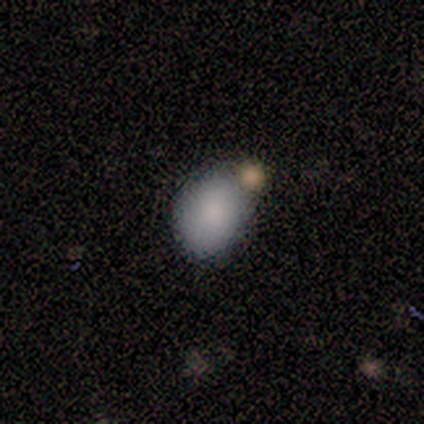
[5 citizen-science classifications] Smooth or featured? smooth (100%)
How rounded? in between (80%)
Merging? merger (60%)